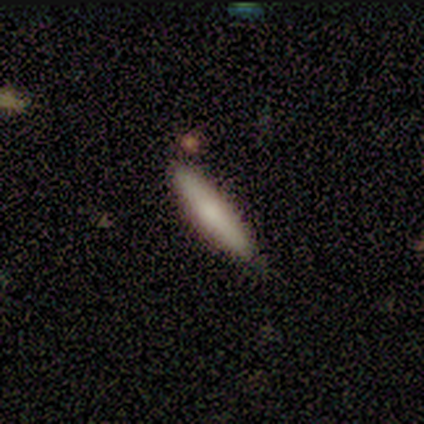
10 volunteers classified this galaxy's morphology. Smooth or featured: smooth — 90% (featured or disk — 10%)
How rounded: cigar-shaped — 89% (in between — 11%)
Merging: none — 100%